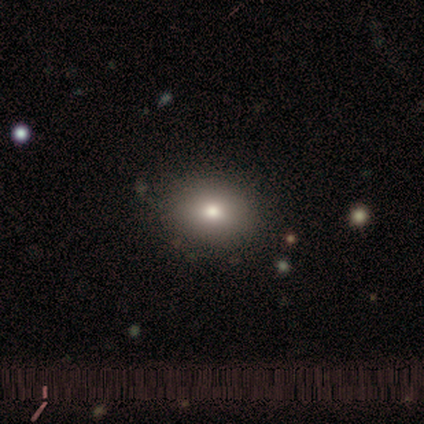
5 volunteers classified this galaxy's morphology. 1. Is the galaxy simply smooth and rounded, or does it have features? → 80% smooth, 20% featured or disk, 0% star or artifact.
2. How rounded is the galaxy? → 75% round, 25% in between, 0% cigar-shaped.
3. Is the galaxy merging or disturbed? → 80% none, 20% merger, 0% minor disturbance, 0% major disturbance.